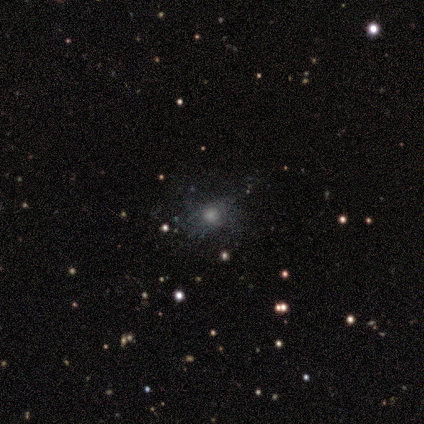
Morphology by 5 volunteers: smooth-or-featured: smooth: 40% (tied) | star or artifact: 40% (tied) | featured or disk: 20%
  how-rounded: round: 100% | in between: 0% | cigar-shaped: 0%
  merging: none: 33% (tied) | minor disturbance: 33% (tied) | major disturbance: 33% (tied) | merger: 0%